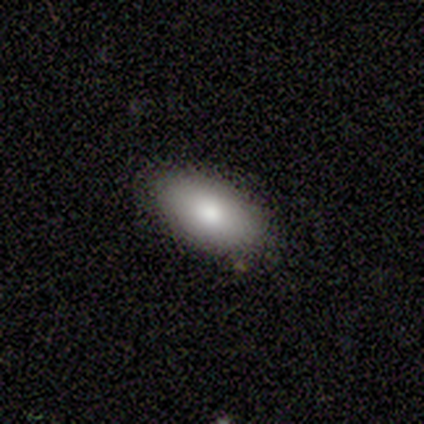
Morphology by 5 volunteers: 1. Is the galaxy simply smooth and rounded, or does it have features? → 100% smooth, 0% featured or disk, 0% star or artifact.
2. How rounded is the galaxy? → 80% in between, 20% round, 0% cigar-shaped.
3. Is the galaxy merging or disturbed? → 100% none, 0% minor disturbance, 0% major disturbance, 0% merger.